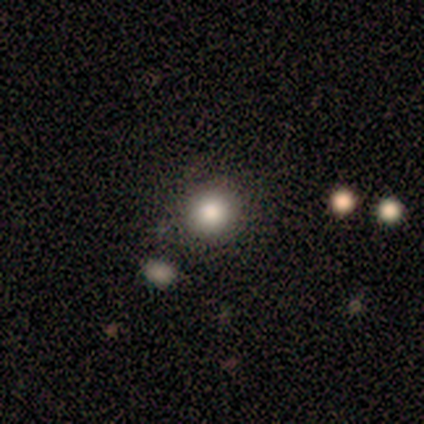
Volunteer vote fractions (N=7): A smooth galaxy with no disk features (86%) that is round (100%). Merging: none (86%).